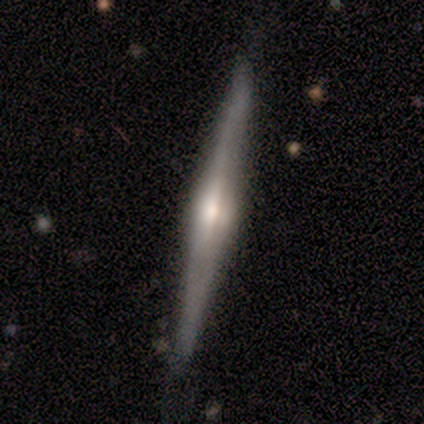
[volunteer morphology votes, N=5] A featured or disk galaxy (60%) viewed edge-on (100%) with a rounded central bulge (67%).

Vote fractions:
- Smooth or featured? featured or disk: 60% / smooth: 20% / star or artifact: 20%
- Edge-on disk? yes: 100% / no: 0%
- Edge-on bulge? rounded: 67% / boxy: 33% / none: 0%
- Merging? none: 100% / minor disturbance: 0% / major disturbance: 0% / merger: 0%